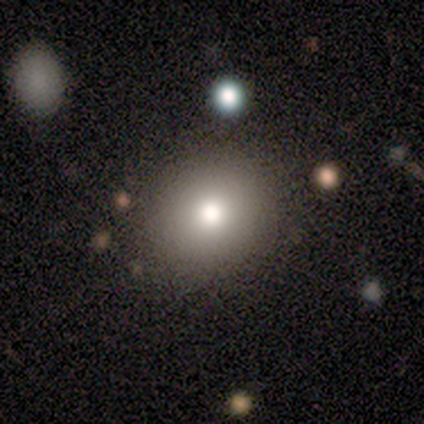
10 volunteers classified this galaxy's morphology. Volunteers were most divided on "how rounded": round: 78%, in between: 22%, cigar-shaped: 0%. More confident: merging — none (100%); smooth or featured — smooth (90%).